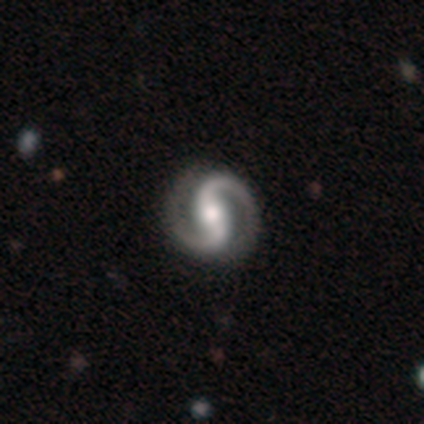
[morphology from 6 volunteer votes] Smooth or featured? featured or disk (100%)
Edge-on disk? no (100%)
Bar? weak (67%)
Spiral arms? yes (100%)
Spiral winding? medium (67%)
Spiral arm count? 2 (83%)
Bulge size? moderate (50%)
Merging? none (100%)